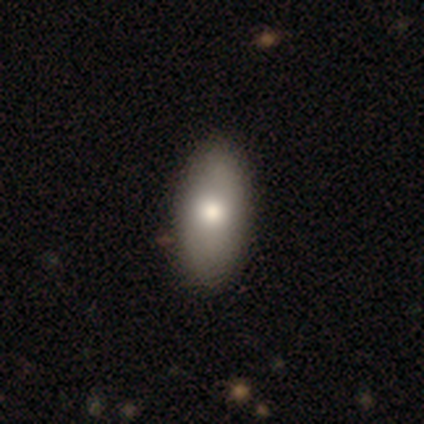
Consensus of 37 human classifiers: Smooth or featured?
  - smooth: 89% *
  - featured or disk: 8%
  - star or artifact: 3%
How rounded?
  - in between: 91% *
  - cigar-shaped: 9%
  - round: 0%
Merging?
  - none: 58% *
  - minor disturbance: 6%
  - major disturbance: 0%
  - merger: 0%